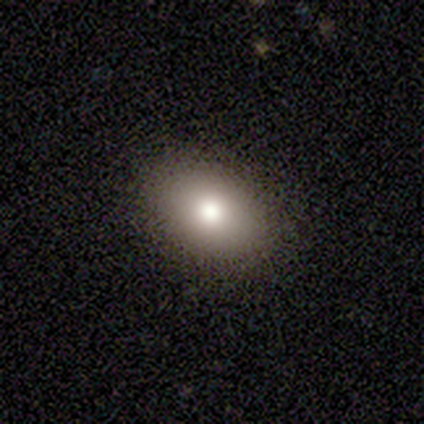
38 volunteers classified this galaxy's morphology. type=smooth (79%); roundness=in between (80%); merging=none (89%).